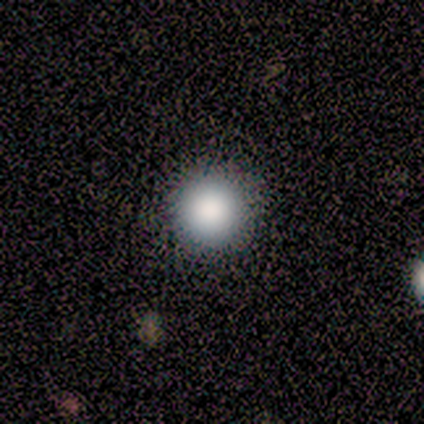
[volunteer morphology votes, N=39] This appears to be a smooth galaxy with no disk features (87%) that is round (97%). Merging: none (64%).